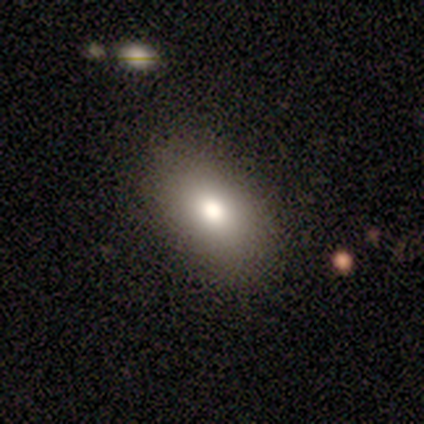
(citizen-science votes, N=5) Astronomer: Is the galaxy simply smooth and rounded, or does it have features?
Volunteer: smooth — 60% (runner-up: featured or disk, 40%).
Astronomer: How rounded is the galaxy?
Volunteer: in between — 100%.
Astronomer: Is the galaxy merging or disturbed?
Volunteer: none — 100%.